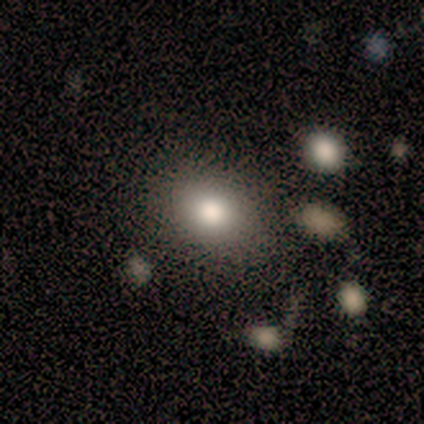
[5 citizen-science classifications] Volunteers were most divided on "how rounded" (2-way tie): round: 40%, in between: 40%, cigar-shaped: 20%. More confident: smooth or featured — smooth (100%); merging — none (80%).